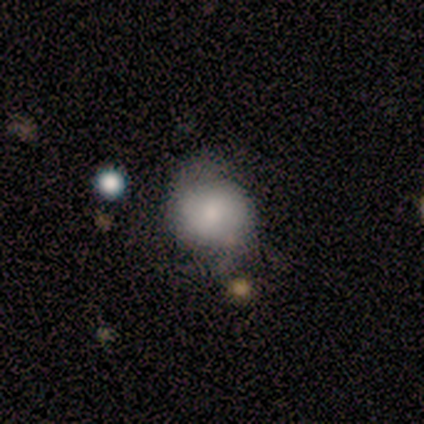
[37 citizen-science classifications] smooth_or_featured: smooth (p=0.54) [alt: featured or disk p=0.41]
how_rounded: round (p=0.85) [alt: in between p=0.15]
merging: none (p=0.49) [alt: merger p=0.14]